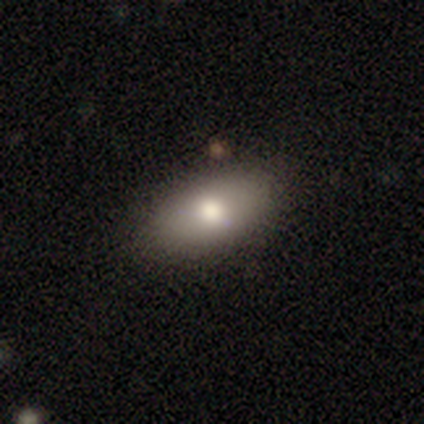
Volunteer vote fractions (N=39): Morphology: type=smooth (69%); roundness=in between (89%); merging=none (89%).